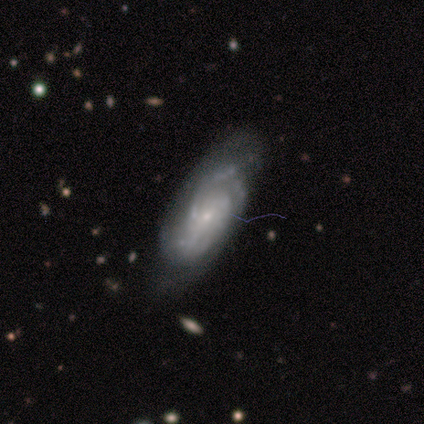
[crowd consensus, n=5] Smooth or featured? featured or disk (100%)
Edge-on disk? no (100%)
Bar? no (100%)
Spiral arms? yes (100%)
Spiral winding? medium (80%)
Spiral arm count? 2 (60%)
Bulge size? small (80%)
Merging? none (60%)